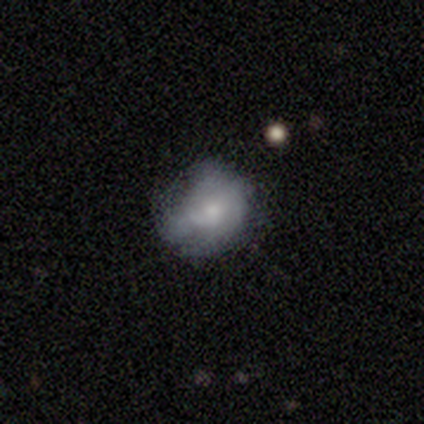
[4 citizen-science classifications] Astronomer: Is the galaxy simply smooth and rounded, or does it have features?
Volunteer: smooth — 75%.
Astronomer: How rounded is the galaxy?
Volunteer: round — 100%.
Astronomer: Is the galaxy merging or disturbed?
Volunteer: minor disturbance — 50%.